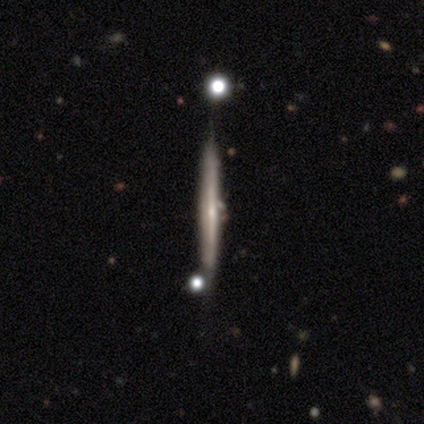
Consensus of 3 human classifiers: A featured or disk galaxy (100%) viewed edge-on (100%) with no central bulge (67%). Merging: none (33%, tied with minor disturbance and merger).